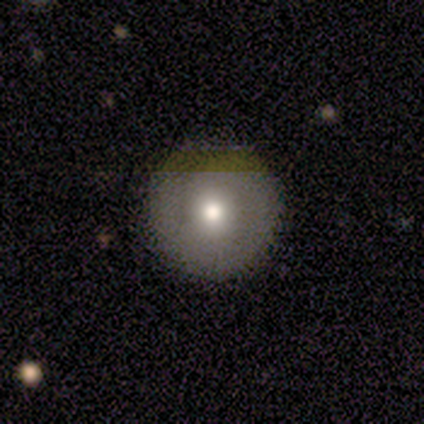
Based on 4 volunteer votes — smooth 50% (tied), star or artifact 50% (tied), featured or disk 0%. Down the decision tree: how rounded — round (100%); merging — none (100%).